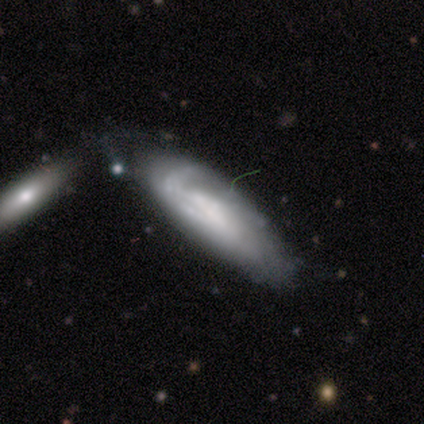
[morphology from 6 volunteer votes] Smooth or featured? featured or disk (67%)
Edge-on disk? no (100%)
Bar? weak (50%, tied with no)
Spiral arms? yes (75%)
Spiral winding? tight (33%, tied with medium and loose)
Spiral arm count? 1 (67%)
Bulge size? none (75%)
Merging? merger (50%)